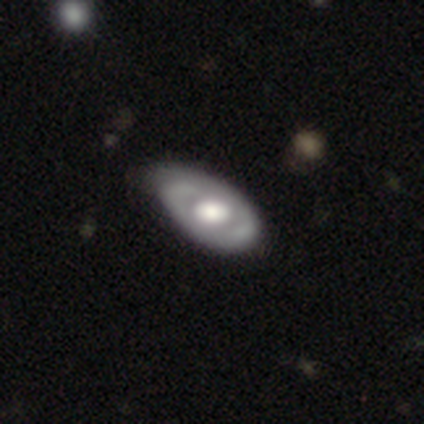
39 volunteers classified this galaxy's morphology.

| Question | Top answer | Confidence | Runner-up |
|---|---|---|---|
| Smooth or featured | featured or disk | 79% | smooth (18%) |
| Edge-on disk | no | 87% | yes (13%) |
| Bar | no | 81% | weak (19%) |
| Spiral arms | yes | 74% | no (26%) |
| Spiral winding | tight | 55% | medium (35%) |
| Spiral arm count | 2 | 60% | can't tell (30%) |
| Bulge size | large | 70% | moderate (26%) |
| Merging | none | 42% | minor disturbance (29%) |